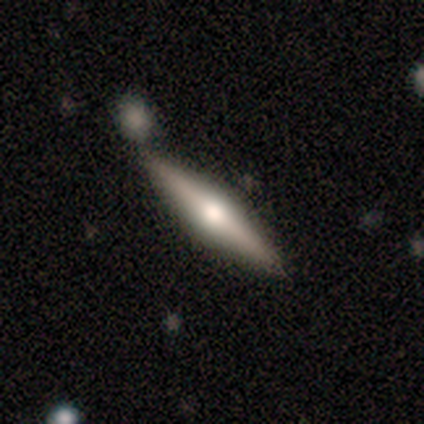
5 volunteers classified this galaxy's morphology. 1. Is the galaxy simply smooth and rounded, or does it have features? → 80% featured or disk, 20% smooth, 0% star or artifact.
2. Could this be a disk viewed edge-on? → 100% yes, 0% no.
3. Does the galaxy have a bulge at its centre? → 100% rounded, 0% boxy, 0% none.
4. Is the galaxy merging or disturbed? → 80% none, 20% minor disturbance, 0% major disturbance, 0% merger.